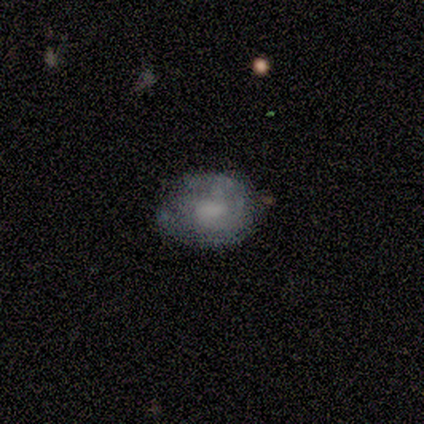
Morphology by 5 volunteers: A smooth galaxy with no disk features (60%) that is in between round and cigar-shaped (67%).

Vote fractions:
- Smooth or featured? smooth: 60% / featured or disk: 40% / star or artifact: 0%
- How rounded? in between: 67% / round: 33% / cigar-shaped: 0%
- Merging? none: 80% / minor disturbance: 20% / major disturbance: 0% / merger: 0%